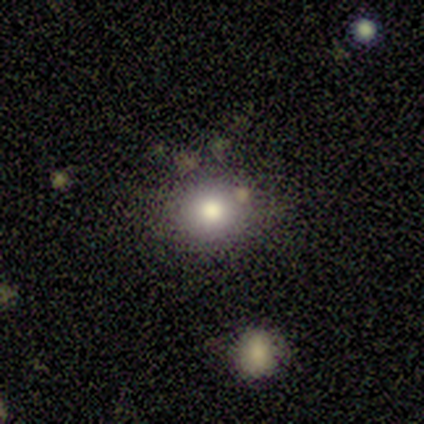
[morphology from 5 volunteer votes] Smooth or featured: smooth — 80% (star or artifact — 20%)
How rounded: round — 100%
Merging: none — 75% (minor disturbance — 25%)